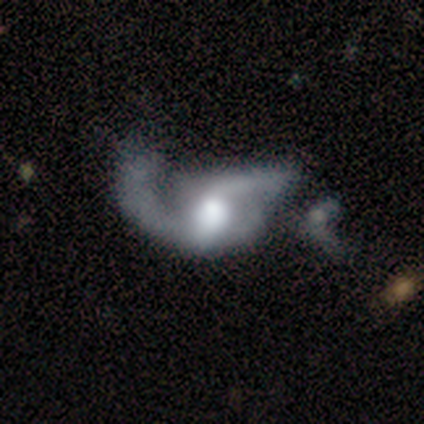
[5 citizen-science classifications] This is clearly a featured or disk galaxy (80%). It is clearly not viewed edge-on (100%). Bar: likely weak (75%). Spiral arm pattern: likely yes (75%). Spiral arm count: marginally 1 (33%, tied with 2 and can't tell). Spiral winding: likely loose (67%). Central bulge: likely moderate (75%). Merging: likely major disturbance (60%).